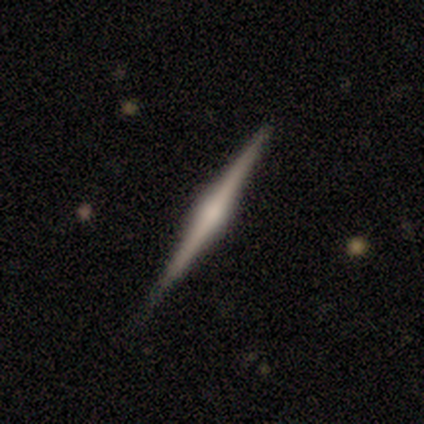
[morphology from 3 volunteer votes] Q: Smooth or featured?
A: featured or disk (67%); runner-up: smooth (33%)
Q: Edge-on disk?
A: yes (100%)
Q: Edge-on bulge?
A: rounded (100%)
Q: Merging?
A: none (100%)